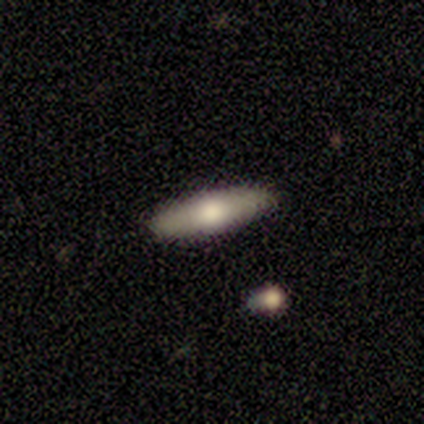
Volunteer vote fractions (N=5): This appears to be a featured or disk galaxy (60%) viewed edge-on (100%) with a rounded central bulge (67%). Merging: none (80%).